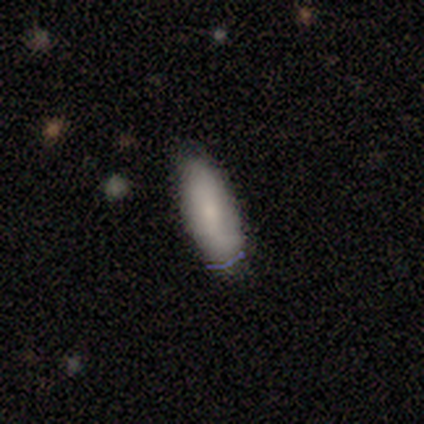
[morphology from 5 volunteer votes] smooth-or-featured: smooth: 60% | featured or disk: 40% | star or artifact: 0%
  how-rounded: in between: 67% | cigar-shaped: 33% | round: 0%
  merging: none: 80% | minor disturbance: 20% | major disturbance: 0% | merger: 0%